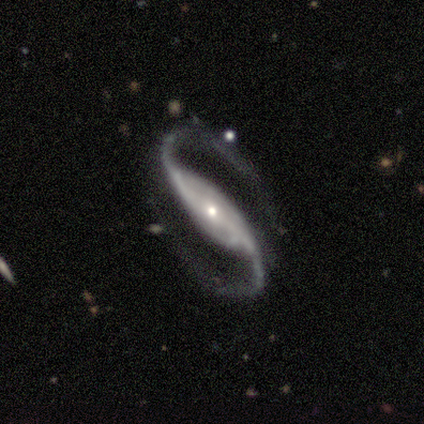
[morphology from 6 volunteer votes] Smooth or featured?
  - featured or disk: 100% *
  - smooth: 0%
  - star or artifact: 0%
Edge-on disk?
  - no: 100% *
  - yes: 0%
Bar?
  - strong: 67% *
  - weak: 17%
  - no: 17%
Spiral arms?
  - yes: 100% *
  - no: 0%
Spiral winding?
  - medium: 83% *
  - tight: 17%
  - loose: 0%
Spiral arm count?
  - 2: 100% *
  - 1: 0%
  - 3: 0%
  - 4: 0%
  - more than 4: 0%
  - can't tell: 0%
Bulge size?
  - large: 33% * (tied)
  - moderate: 33% * (tied)
  - small: 33% * (tied)
  - dominant: 0%
  - none: 0%
Merging?
  - none: 67% *
  - minor disturbance: 33%
  - major disturbance: 0%
  - merger: 0%